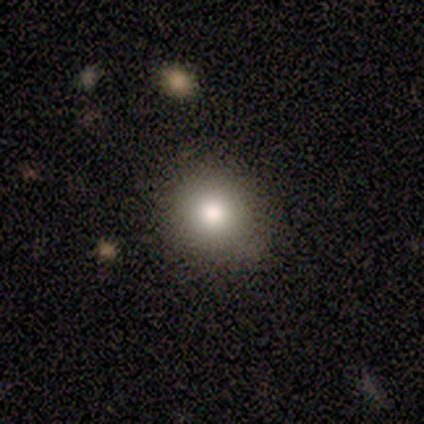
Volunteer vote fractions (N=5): Q: Smooth or featured?
A: smooth (80%); runner-up: star or artifact (20%)
Q: How rounded?
A: round (75%); runner-up: in between (25%)
Q: Merging?
A: none (100%)